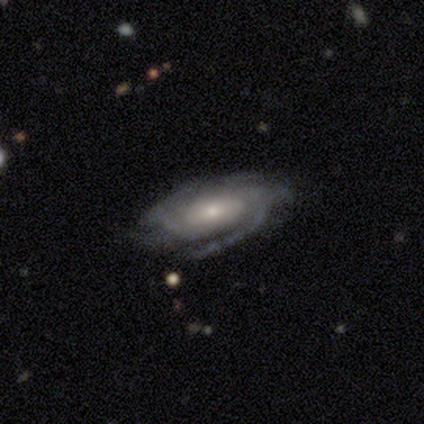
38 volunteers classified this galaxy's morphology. Smooth or featured?
  - featured or disk: 87% *
  - smooth: 11%
  - star or artifact: 3%
Edge-on disk?
  - no: 91% *
  - yes: 9%
Bar?
  - no: 63% *
  - weak: 30%
  - strong: 7%
Spiral arms?
  - yes: 100% *
  - no: 0%
Spiral winding?
  - tight: 50% *
  - medium: 43%
  - loose: 7%
Spiral arm count?
  - 2: 37% *
  - can't tell: 33%
  - 4: 17%
  - 3: 10%
  - more than 4: 3%
  - 1: 0%
Bulge size?
  - small: 50% *
  - moderate: 33%
  - large: 13%
  - dominant: 3%
  - none: 0%
Merging?
  - none: 78% *
  - minor disturbance: 11%
  - major disturbance: 8%
  - merger: 3%